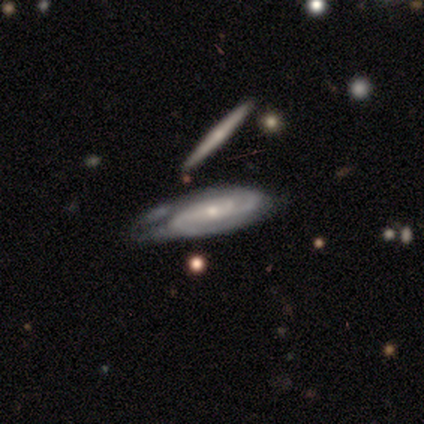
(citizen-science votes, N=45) This appears to be a featured or disk galaxy (82%) with no bar (54%), 2 (50%) tight (56%) spiral arms (97%) and a small central bulge (74%). Merging: minor disturbance (49%).